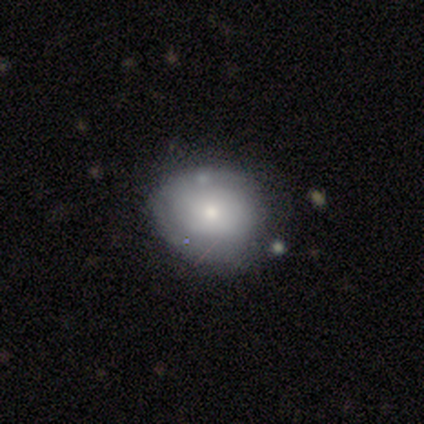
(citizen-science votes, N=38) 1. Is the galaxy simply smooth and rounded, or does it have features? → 47% smooth, 37% featured or disk, 16% star or artifact.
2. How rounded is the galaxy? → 56% round, 44% in between, 0% cigar-shaped.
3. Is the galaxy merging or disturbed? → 53% none, 22% minor disturbance, 16% major disturbance, 9% merger.